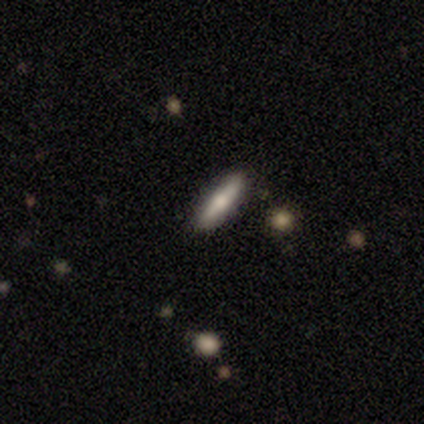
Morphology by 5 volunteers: Smooth or featured?
  - smooth: 40% * (tied)
  - featured or disk: 40% * (tied)
  - star or artifact: 20%
How rounded?
  - in between: 50% * (tied)
  - cigar-shaped: 50% * (tied)
  - round: 0%
Merging?
  - none: 100% *
  - minor disturbance: 0%
  - major disturbance: 0%
  - merger: 0%